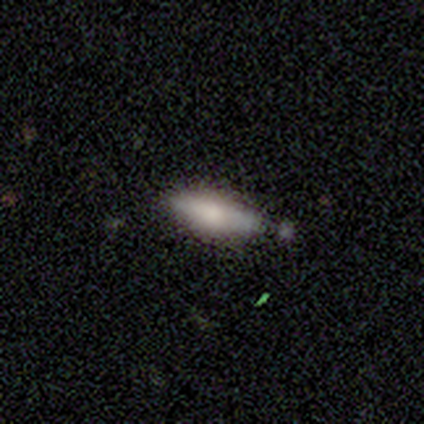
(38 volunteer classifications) This appears to be a smooth galaxy with no disk features (63%) that is in between round and cigar-shaped (58%). Merging: none (67%).